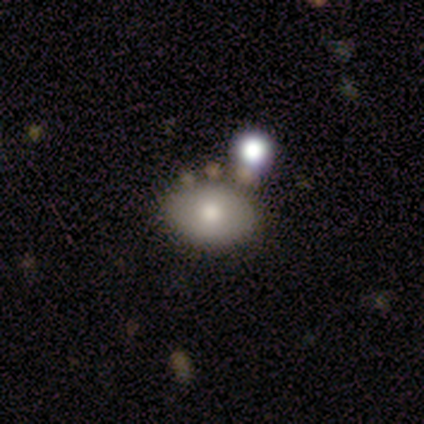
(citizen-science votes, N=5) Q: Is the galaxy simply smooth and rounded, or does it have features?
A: smooth — 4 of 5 (80%).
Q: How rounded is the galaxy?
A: in between — 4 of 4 (100%).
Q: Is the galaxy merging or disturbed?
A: merger — 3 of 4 (75%).